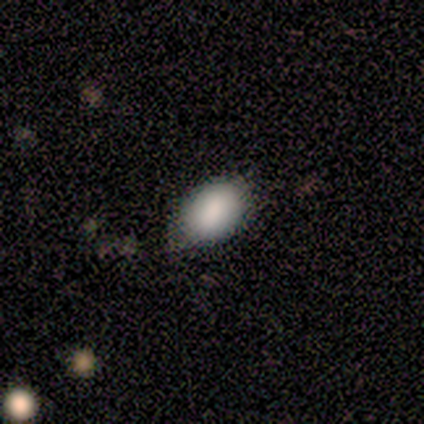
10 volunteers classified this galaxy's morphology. Smooth or featured: smooth — 70% (featured or disk — 20%)
How rounded: in between — 86% (round — 14%)
Merging: none — 100%